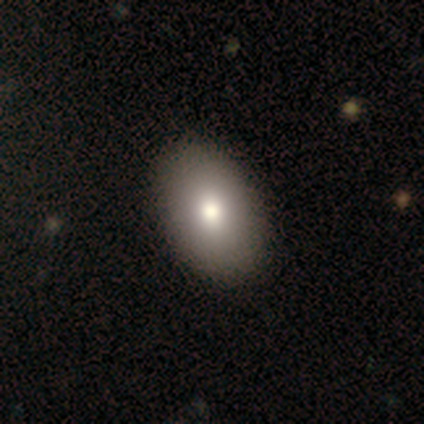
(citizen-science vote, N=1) Smooth or featured? 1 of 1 (100%) said featured or disk. Edge-on disk? 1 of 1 (100%) said no. Bar? 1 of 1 (100%) said no. Spiral arms? 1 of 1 (100%) said no. Bulge size? 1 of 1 (100%) said small. Merging? 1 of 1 (100%) said none.